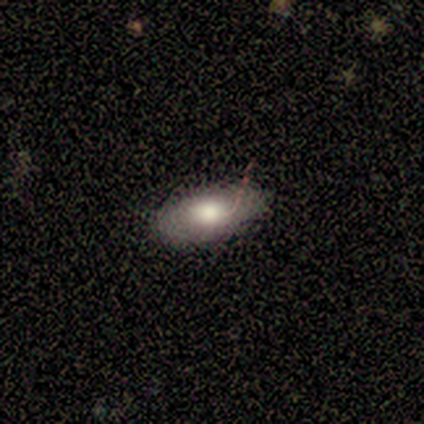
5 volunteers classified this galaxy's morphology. Smooth or featured? 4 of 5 (80%) said smooth. How rounded? 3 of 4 (75%) said in between. Merging? 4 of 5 (80%) said none.